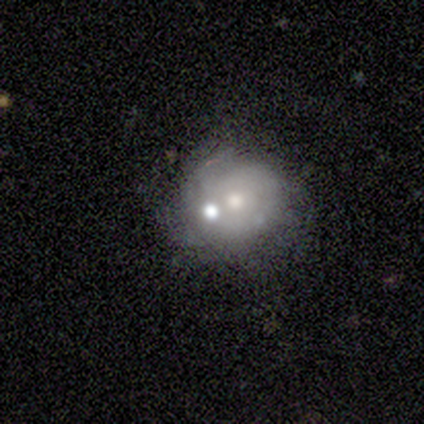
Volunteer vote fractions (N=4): A smooth galaxy with no disk features (50%, tied with featured or disk) that is round (100%).

Vote fractions:
- Smooth or featured? smooth: 50% (tied) / featured or disk: 50% (tied) / star or artifact: 0%
- How rounded? round: 100% / in between: 0% / cigar-shaped: 0%
- Merging? none: 75% / merger: 25% / minor disturbance: 0% / major disturbance: 0%